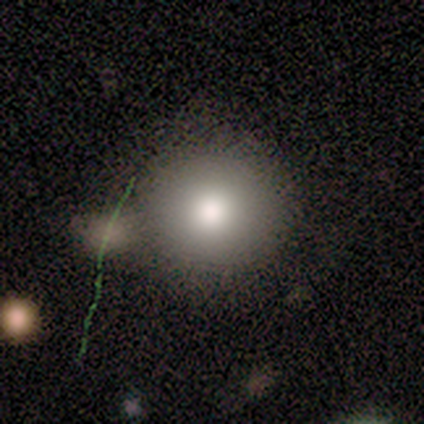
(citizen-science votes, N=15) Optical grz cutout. It shows a smooth galaxy with no disk features (87%) that is round (92%). Merging: none (69%).